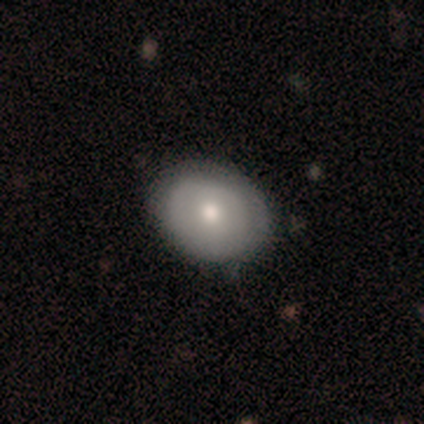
smooth-or-featured: smooth: 67% | featured or disk: 33% | star or artifact: 0%
  how-rounded: round: 50% (tied) | in between: 50% (tied) | cigar-shaped: 0%
  merging: none: 100% | minor disturbance: 0% | major disturbance: 0% | merger: 0%